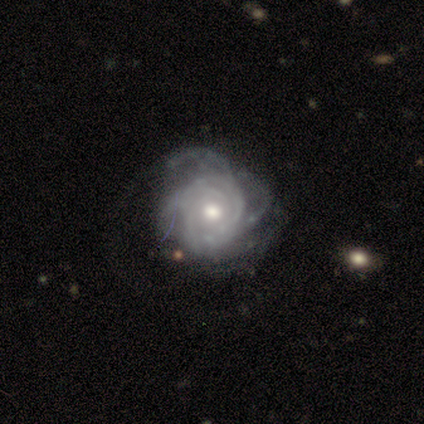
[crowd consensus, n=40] A featured or disk galaxy (85%) with no bar (82%), tight (76%) spiral arms (88%) and a moderate central bulge (67%). Merging: none (62%).